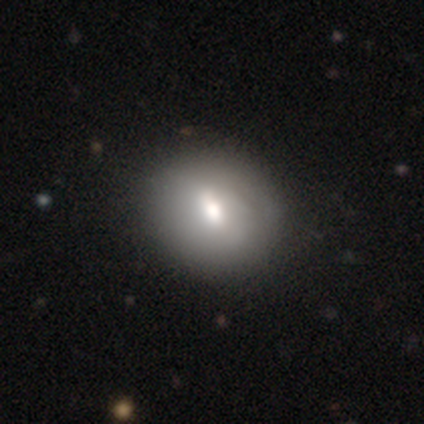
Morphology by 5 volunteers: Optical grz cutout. It shows a featured or disk galaxy (60%) with a strong bar (33%, tied with weak and no), no spiral arms (67%) and a moderate central bulge (67%). Merging: none (100%).